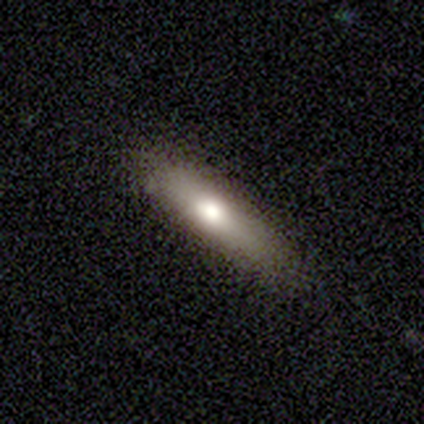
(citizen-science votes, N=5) Smooth or featured? smooth (100%)
How rounded? cigar-shaped (100%)
Merging? none (80%)